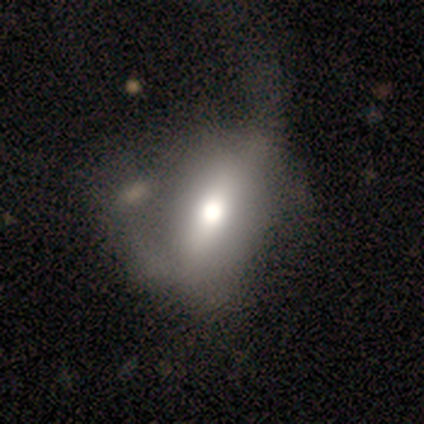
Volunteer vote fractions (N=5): smooth-or-featured: featured or disk: 60% | smooth: 40% | star or artifact: 0%
  disk-edge-on: no: 100% | yes: 0%
    bar: strong: 33% (tied) | weak: 33% (tied) | no: 33% (tied)
    has-spiral-arms: no: 67% | yes: 33%
    bulge-size: large: 33% (tied) | moderate: 33% (tied) | small: 33% (tied) | dominant: 0% | none: 0%
  merging: minor disturbance: 40% (tied) | major disturbance: 40% (tied) | merger: 20% | none: 0%